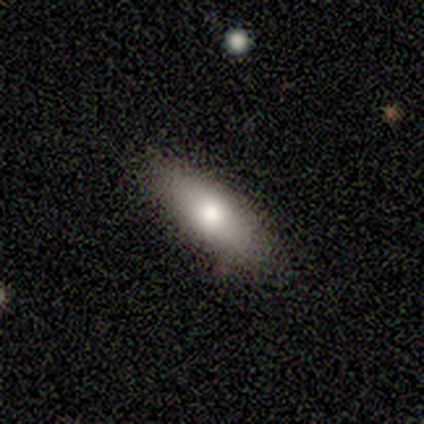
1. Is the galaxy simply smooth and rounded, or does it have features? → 75% smooth, 25% star or artifact, 0% featured or disk.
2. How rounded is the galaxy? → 67% cigar-shaped, 33% in between, 0% round.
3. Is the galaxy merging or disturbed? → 67% none, 33% minor disturbance, 0% major disturbance, 0% merger.